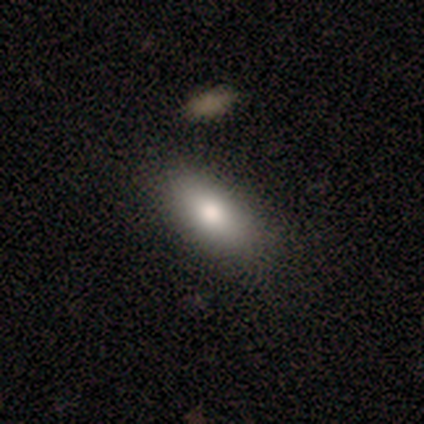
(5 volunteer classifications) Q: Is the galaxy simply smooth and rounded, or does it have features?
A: smooth — 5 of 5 (100%).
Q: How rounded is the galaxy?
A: in between — 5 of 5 (100%).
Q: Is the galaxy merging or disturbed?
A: none — 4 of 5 (80%).